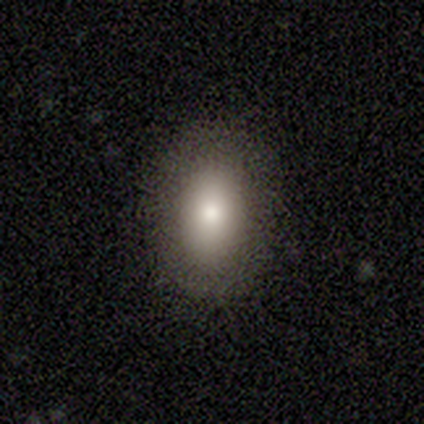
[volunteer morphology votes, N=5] type=smooth (80%); roundness=in between (100%); merging=none (80%).